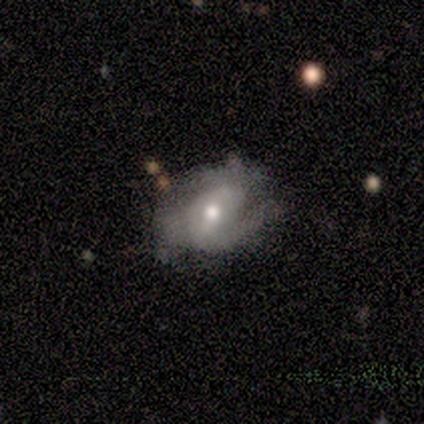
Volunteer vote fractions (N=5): Volunteers were most divided on "spiral winding" (2-way tie): tight: 50%, medium: 50%, loose: 0%. More confident: edge-on disk — no (100%); spiral arm count — 2 (100%); bulge size — moderate (100%); bar — no (67%); spiral arms — yes (67%); smooth or featured — featured or disk (60%); merging — none (60%).